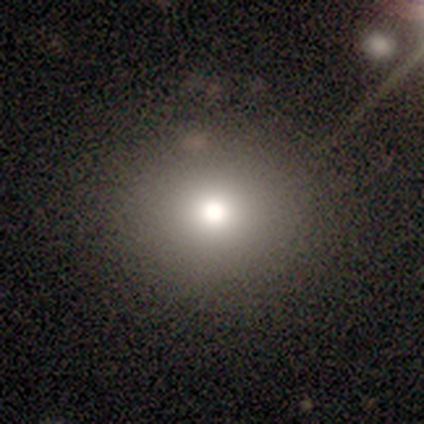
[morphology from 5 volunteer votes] Smooth or featured?
  - smooth: 60% *
  - star or artifact: 40%
  - featured or disk: 0%
How rounded?
  - round: 100% *
  - in between: 0%
  - cigar-shaped: 0%
Merging?
  - none: 67% *
  - minor disturbance: 33%
  - major disturbance: 0%
  - merger: 0%